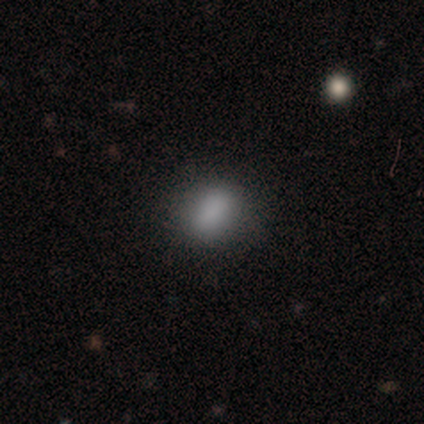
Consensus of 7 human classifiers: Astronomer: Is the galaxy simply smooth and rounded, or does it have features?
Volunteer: smooth — 86%.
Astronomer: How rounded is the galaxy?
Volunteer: in between — 100%.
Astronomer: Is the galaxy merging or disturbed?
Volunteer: none — 71%.